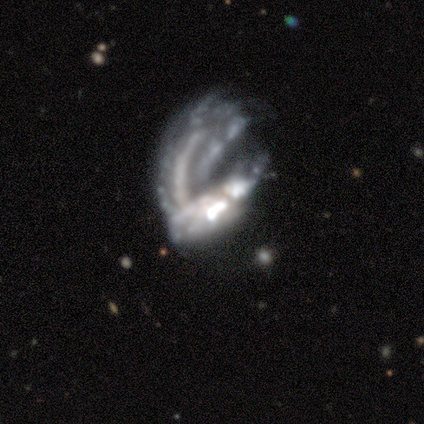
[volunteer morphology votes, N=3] Smooth or featured? featured or disk (67%)
Edge-on disk? no (100%)
Bar? strong (50%, tied with no)
Spiral arms? no (100%)
Bulge size? none (100%)
Merging? major disturbance (50%, tied with merger)